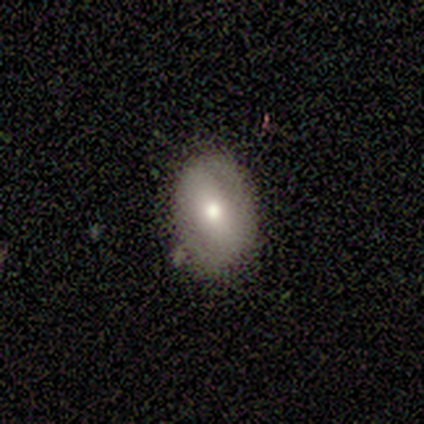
This appears to be a smooth galaxy with no disk features (75%) that is in between round and cigar-shaped (67%). Merging: none (75%).